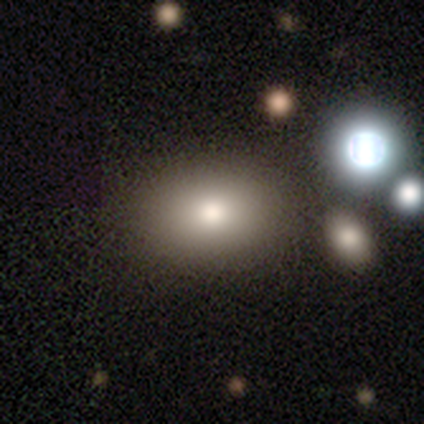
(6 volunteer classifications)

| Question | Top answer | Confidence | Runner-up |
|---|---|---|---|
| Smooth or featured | smooth | 83% | star or artifact (17%) |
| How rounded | in between | 100% | — |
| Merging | none | 100% | — |